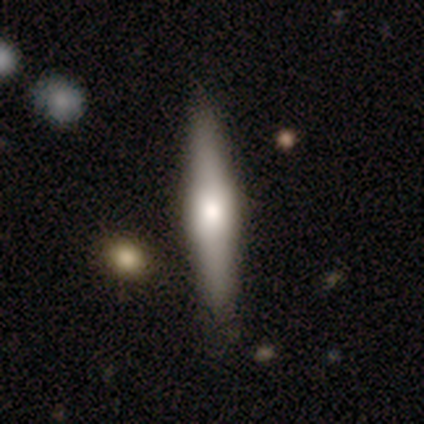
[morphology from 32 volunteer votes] smooth_or_featured: featured or disk (p=0.59) [alt: smooth p=0.34]
disk_edge_on: yes (p=1.00)
edge_on_bulge: rounded (p=0.68) [alt: boxy p=0.32]
merging: none (p=0.87) [alt: minor disturbance p=0.10]